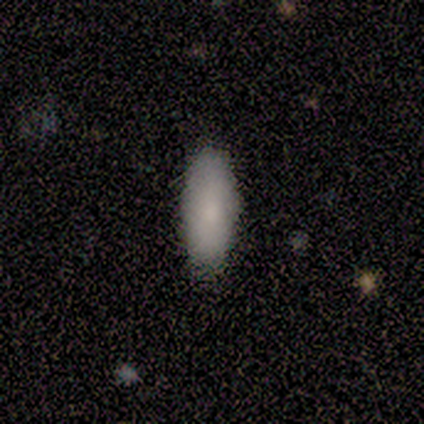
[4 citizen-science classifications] Smooth or featured? smooth (75%)
How rounded? in between (67%)
Merging? none (100%)